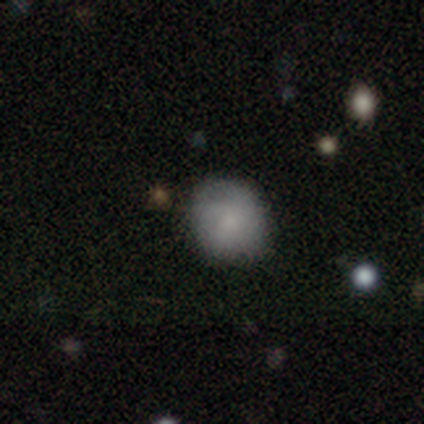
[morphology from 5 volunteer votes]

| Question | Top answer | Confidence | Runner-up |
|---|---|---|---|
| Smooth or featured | smooth | 40% | tied: featured or disk (40%) |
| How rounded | round | 100% | — |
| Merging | none | 50% | tied: minor disturbance (50%) |